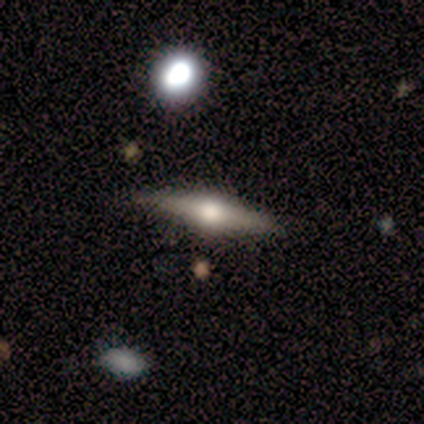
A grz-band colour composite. It shows a featured or disk galaxy (90%) viewed edge-on (100%) with a rounded central bulge (100%). Merging: none (100%).